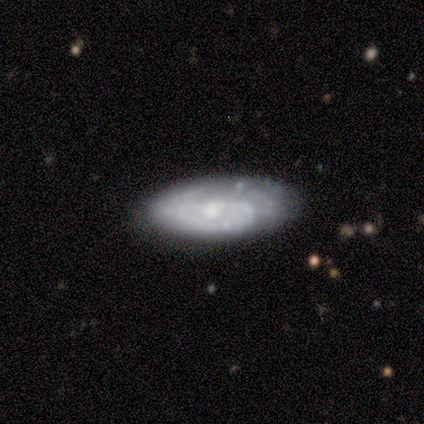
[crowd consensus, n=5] This appears to be a featured or disk galaxy (100%) with no bar (100%), 1 (67%) tight (100%) spiral arms (75%) and a small central bulge (75%). Merging: none (60%).